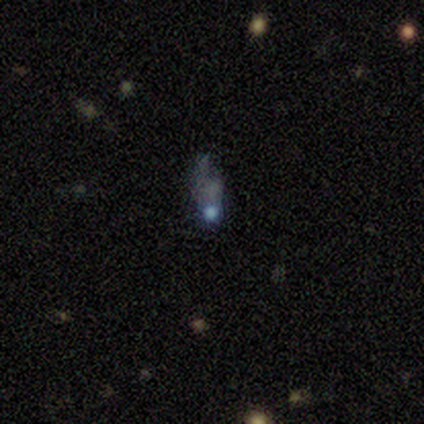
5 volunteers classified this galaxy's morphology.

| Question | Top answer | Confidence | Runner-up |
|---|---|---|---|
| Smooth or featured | featured or disk | 60% | smooth (20%) |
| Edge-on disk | no | 100% | — |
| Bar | no | 100% | — |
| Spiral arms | no | 100% | — |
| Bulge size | moderate | 67% | none (33%) |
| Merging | none | 50% | tied: major disturbance (50%) |